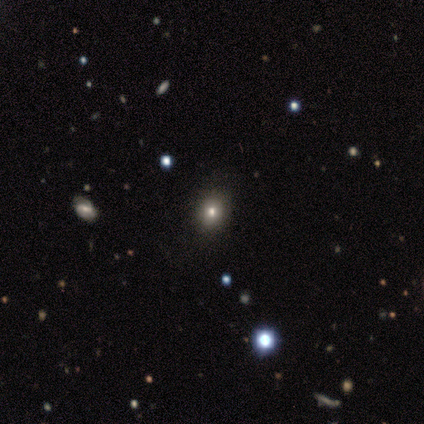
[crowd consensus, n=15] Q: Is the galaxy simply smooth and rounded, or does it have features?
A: smooth — 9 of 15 (60%).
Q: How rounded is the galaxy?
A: round — 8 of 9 (89%).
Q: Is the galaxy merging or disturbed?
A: none — 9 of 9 (100%).